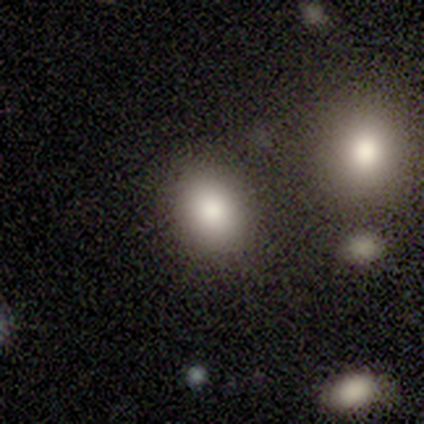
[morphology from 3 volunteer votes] A smooth galaxy with no disk features (100%) that is in between round and cigar-shaped (67%). Merging: none (67%).